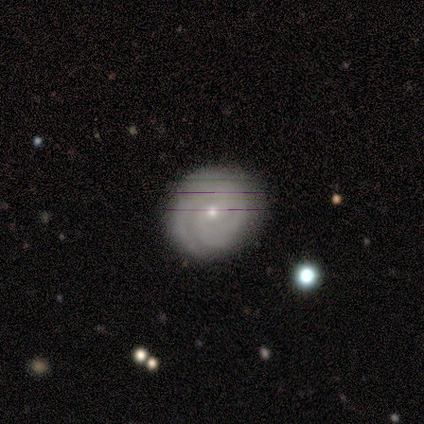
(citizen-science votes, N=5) Smooth or featured: featured or disk — 80% (smooth — 20%)
Edge-on disk: no — 100%
Bar: no — 75% (strong — 25%)
Spiral arms: yes — 100%
Spiral winding: tight — 75% (loose — 25%)
Spiral arm count: 2 — 50% (3 — 25%)
Bulge size: small — 75% (moderate — 25%)
Merging: none — 60% (minor disturbance — 20%)